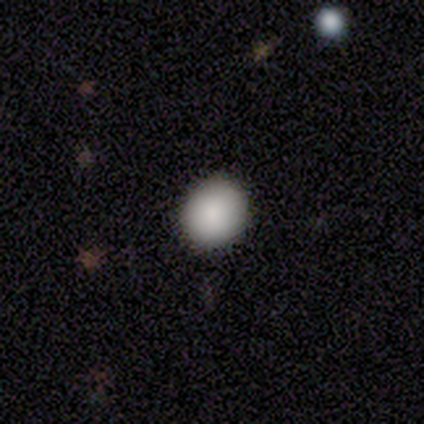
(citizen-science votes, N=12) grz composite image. It shows a smooth galaxy with no disk features (92%) that is round (82%). Merging: none (75%).